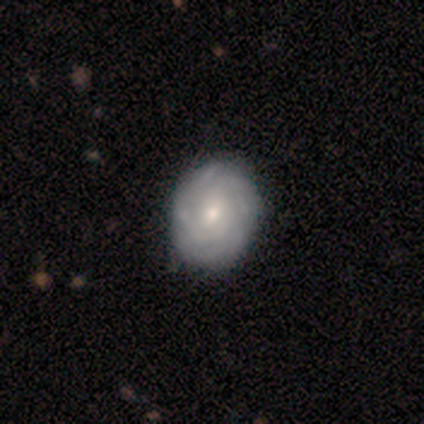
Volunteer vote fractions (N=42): Overall: featured or disk (74%). Edge-on disk: no (100%). Bar: no (68%; weak 29%). Spiral arms: yes (94%). Spiral arm count: can't tell (45%; 4 21%). Spiral winding: tight (90%). Bulge size: moderate (52%; small 42%). Merging: none (79%).